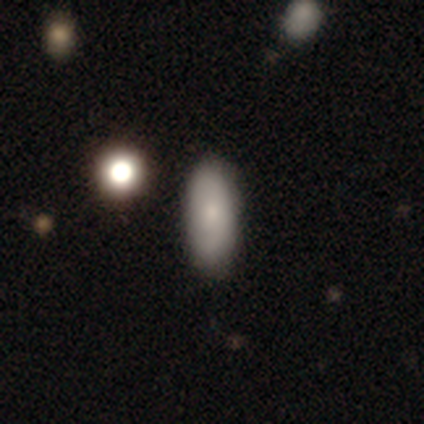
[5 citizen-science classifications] Q: Smooth or featured?
A: smooth (80%); runner-up: star or artifact (20%)
Q: How rounded?
A: in between (75%); runner-up: cigar-shaped (25%)
Q: Merging?
A: none (100%)